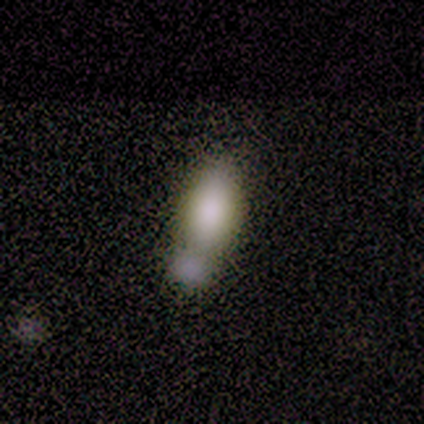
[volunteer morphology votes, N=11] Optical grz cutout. It shows a smooth galaxy with no disk features (64%) that is in between round and cigar-shaped (100%). Merging: merger (50%).